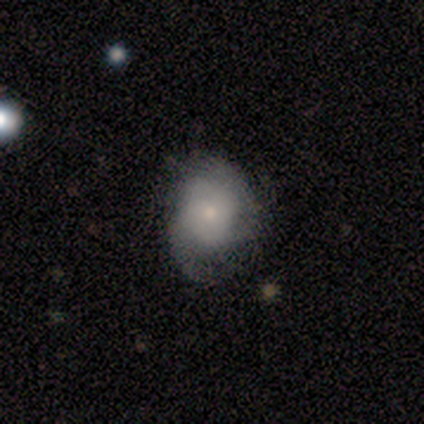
Smooth or featured?
  - featured or disk: 60% *
  - smooth: 40%
  - star or artifact: 0%
Edge-on disk?
  - no: 100% *
  - yes: 0%
Bar?
  - no: 100% *
  - strong: 0%
  - weak: 0%
Spiral arms?
  - yes: 100% *
  - no: 0%
Spiral winding?
  - tight: 100% *
  - medium: 0%
  - loose: 0%
Spiral arm count?
  - 3: 67% *
  - 2: 33%
  - 1: 0%
  - 4: 0%
  - more than 4: 0%
  - can't tell: 0%
Bulge size?
  - small: 100% *
  - dominant: 0%
  - large: 0%
  - moderate: 0%
  - none: 0%
Merging?
  - none: 60% *
  - minor disturbance: 40%
  - major disturbance: 0%
  - merger: 0%